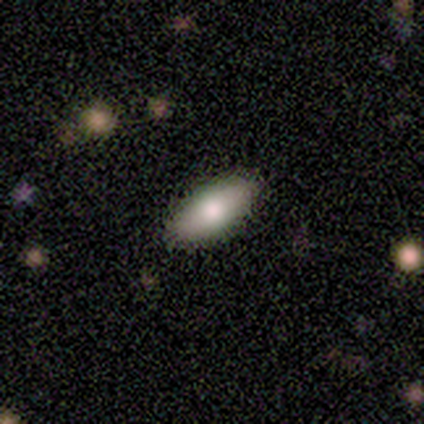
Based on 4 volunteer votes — Q: Smooth or featured?
A: smooth (100%)
Q: How rounded?
A: in between (75%); runner-up: cigar-shaped (25%)
Q: Merging?
A: none (75%); runner-up: minor disturbance (25%)